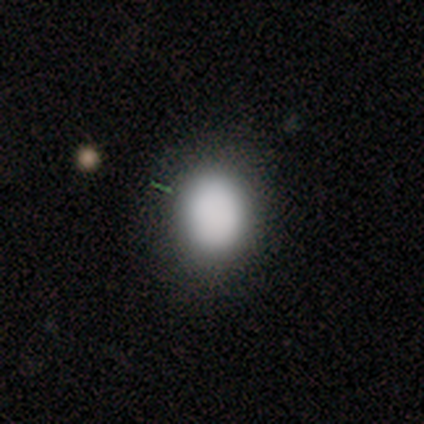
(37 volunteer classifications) Morphology: type=smooth (92%); roundness=round (50%, tied with in between); merging=none (89%).